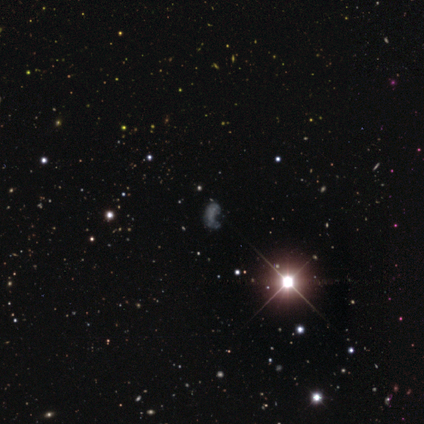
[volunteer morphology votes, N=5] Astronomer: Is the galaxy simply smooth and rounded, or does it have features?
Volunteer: star or artifact — 80%.